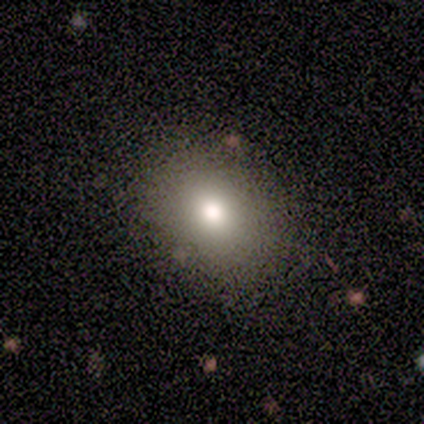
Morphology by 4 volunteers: Smooth or featured: smooth — 50% (tied with star or artifact — 50%)
How rounded: in between — 100%
Merging: none — 50% (tied with minor disturbance — 50%)